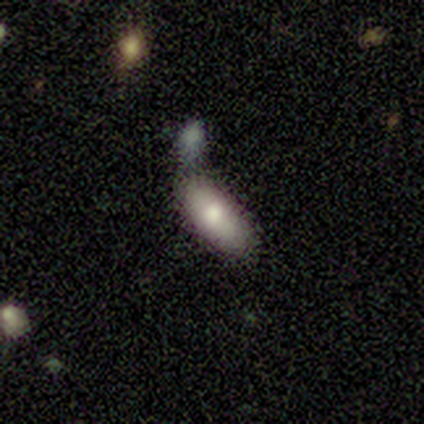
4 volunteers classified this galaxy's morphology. A smooth galaxy with no disk features (50%) that is in between round and cigar-shaped (100%).

Vote fractions:
- Smooth or featured? smooth: 50% / featured or disk: 25% / star or artifact: 25%
- How rounded? in between: 100% / round: 0% / cigar-shaped: 0%
- Merging? none: 67% / merger: 33% / minor disturbance: 0% / major disturbance: 0%